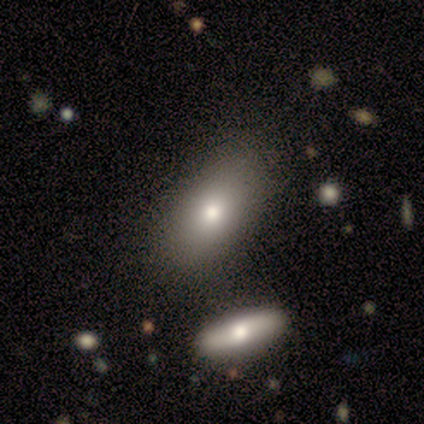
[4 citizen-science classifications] This is possibly a smooth galaxy (50%). How rounded: clearly in between (100%). Merging: clearly none (100%).